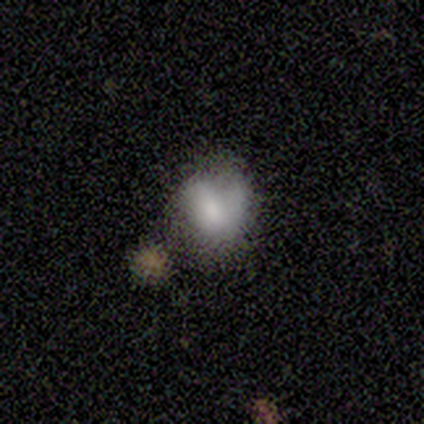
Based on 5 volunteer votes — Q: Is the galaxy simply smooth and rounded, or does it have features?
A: smooth — 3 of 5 (60%).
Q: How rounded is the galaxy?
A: round — 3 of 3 (100%).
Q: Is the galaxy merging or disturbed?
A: none — 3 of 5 (60%).